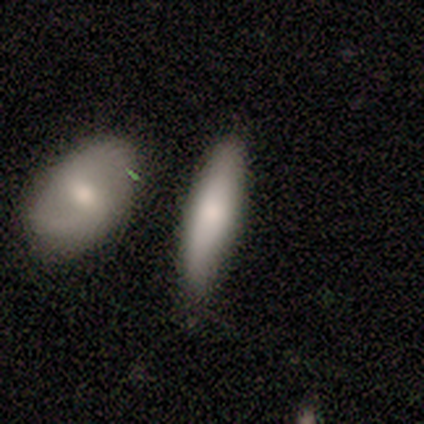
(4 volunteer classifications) This is clearly a smooth galaxy (100%). How rounded: likely cigar-shaped (75%). Merging: likely none (75%).